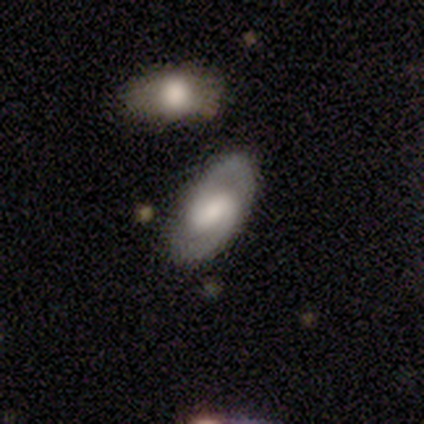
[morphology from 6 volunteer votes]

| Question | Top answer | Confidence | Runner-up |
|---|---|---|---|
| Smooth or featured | featured or disk | 100% | — |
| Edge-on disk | no | 100% | — |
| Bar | weak | 50% | strong (33%) |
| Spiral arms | yes | 83% | no (17%) |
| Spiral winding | medium | 60% | tight (40%) |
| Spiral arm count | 2 | 100% | — |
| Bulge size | large | 33% | tied: small (33%) |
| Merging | none | 100% | — |